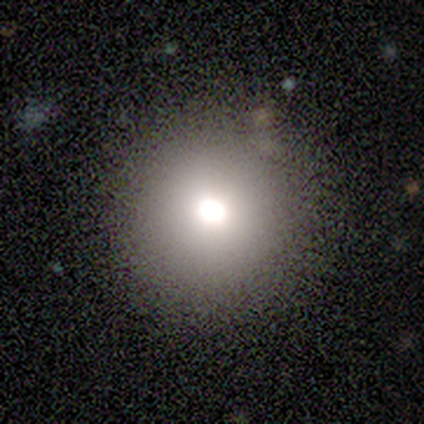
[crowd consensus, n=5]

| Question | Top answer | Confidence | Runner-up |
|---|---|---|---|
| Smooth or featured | smooth | 60% | featured or disk (40%) |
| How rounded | round | 100% | — |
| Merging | none | 100% | — |